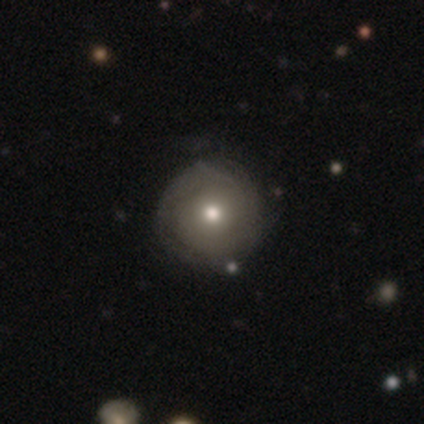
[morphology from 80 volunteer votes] Smooth or featured?
  - featured or disk: 60% *
  - smooth: 31%
  - star or artifact: 9%
Edge-on disk?
  - no: 94% *
  - yes: 6%
Bar?
  - no: 91% *
  - weak: 9%
  - strong: 0%
Spiral arms?
  - yes: 69% *
  - no: 31%
Spiral winding?
  - tight: 71% *
  - medium: 19%
  - loose: 10%
Spiral arm count?
  - can't tell: 61% *
  - 2: 26%
  - 3: 6%
  - 1: 3%
  - 4: 3%
  - more than 4: 0%
Bulge size?
  - moderate: 67% *
  - small: 24%
  - dominant: 4%
  - large: 4%
  - none: 0%
Merging?
  - none: 42% *
  - minor disturbance: 8%
  - major disturbance: 1%
  - merger: 0%